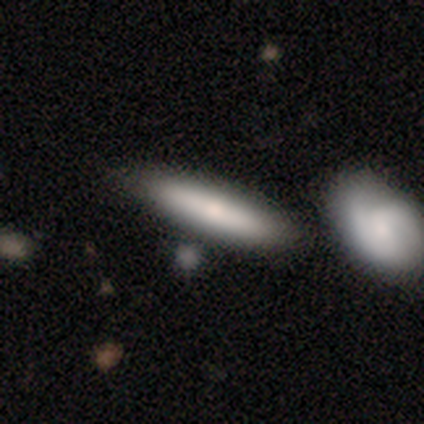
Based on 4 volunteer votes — This appears to be a smooth galaxy with no disk features (100%) that is cigar-shaped (100%). Merging: none (100%).